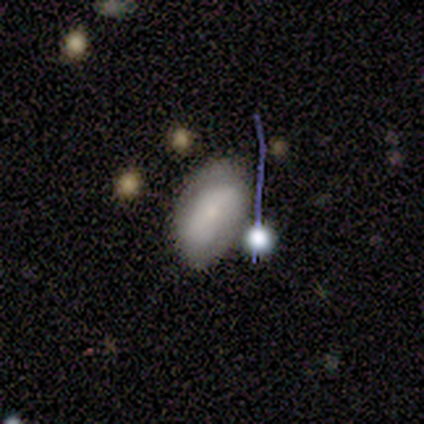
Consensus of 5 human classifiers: Volunteers were most divided on "smooth or featured": smooth: 60%, featured or disk: 40%, star or artifact: 0%. More confident: how rounded — in between (100%); merging — none (80%).